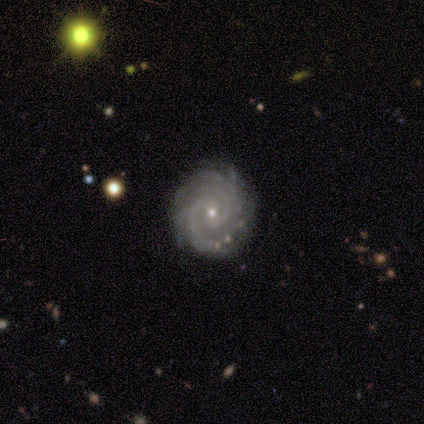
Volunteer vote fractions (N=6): Smooth or featured? 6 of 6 (100%) said featured or disk. Edge-on disk? 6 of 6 (100%) said no. Bar? 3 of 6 (50%) said no. Spiral arms? 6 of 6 (100%) said yes. Spiral winding? 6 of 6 (100%) said tight. Spiral arm count? 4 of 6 (67%) said 2. Bulge size? 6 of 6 (100%) said small. Merging? 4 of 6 (67%) said none.